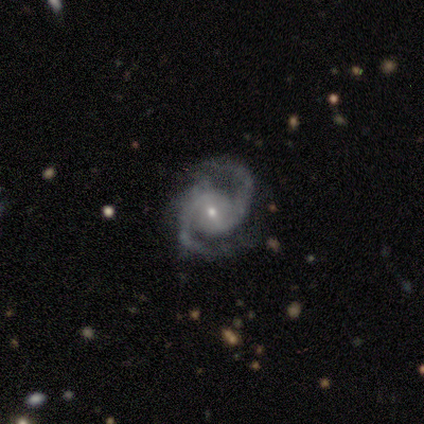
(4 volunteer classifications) smooth-or-featured: featured or disk: 100% | smooth: 0% | star or artifact: 0%
  disk-edge-on: no: 100% | yes: 0%
    bar: weak: 75% | strong: 25% | no: 0%
    has-spiral-arms: yes: 100% | no: 0%
      spiral-winding: medium: 50% (tied) | loose: 50% (tied) | tight: 0%
      spiral-arm-count: 2: 100% | 1: 0% | 3: 0% | 4: 0% | more than 4: 0% | can't tell: 0%
    bulge-size: small: 75% | moderate: 25% | dominant: 0% | large: 0% | none: 0%
  merging: minor disturbance: 75% | none: 25% | major disturbance: 0% | merger: 0%